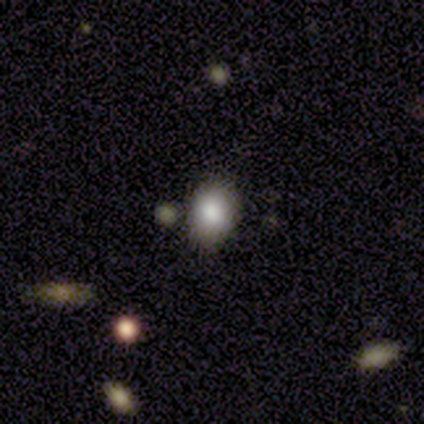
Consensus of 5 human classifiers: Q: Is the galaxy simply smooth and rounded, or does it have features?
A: star or artifact — 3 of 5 (60%).